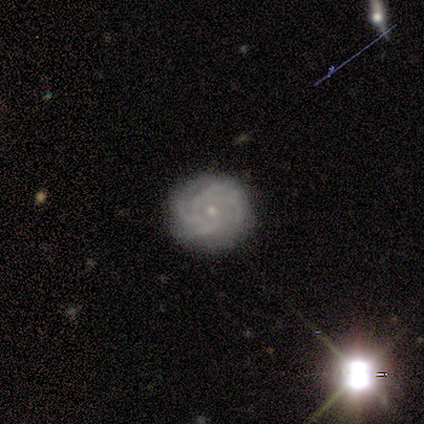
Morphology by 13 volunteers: Smooth or featured?
  - featured or disk: 85% *
  - star or artifact: 15%
  - smooth: 0%
Edge-on disk?
  - no: 100% *
  - yes: 0%
Bar?
  - no: 82% *
  - weak: 18%
  - strong: 0%
Spiral arms?
  - yes: 91% *
  - no: 9%
Spiral winding?
  - tight: 70% *
  - medium: 20%
  - loose: 10%
Spiral arm count?
  - 4: 40% * (tied)
  - can't tell: 40% * (tied)
  - 3: 10%
  - more than 4: 10%
  - 1: 0%
  - 2: 0%
Bulge size?
  - small: 100% *
  - dominant: 0%
  - large: 0%
  - moderate: 0%
  - none: 0%
Merging?
  - none: 100% *
  - minor disturbance: 0%
  - major disturbance: 0%
  - merger: 0%